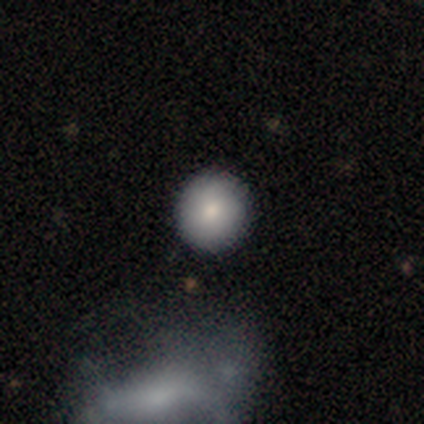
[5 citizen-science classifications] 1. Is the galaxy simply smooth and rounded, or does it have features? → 60% smooth, 40% featured or disk, 0% star or artifact.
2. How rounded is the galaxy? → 100% round, 0% in between, 0% cigar-shaped.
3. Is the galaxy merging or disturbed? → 80% none, 20% minor disturbance, 0% major disturbance, 0% merger.